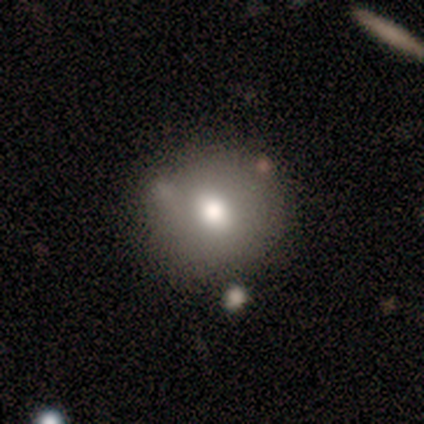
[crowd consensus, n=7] Overall: featured or disk (57%; smooth 43%). Edge-on disk: no (100%). Bar: no (75%). Spiral arms: no (100%). Bulge size: moderate (100%). Merging: none (100%).